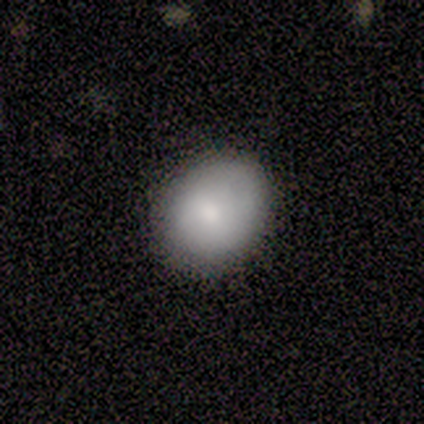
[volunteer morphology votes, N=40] smooth-or-featured: smooth: 78% | featured or disk: 15% | star or artifact: 8%
  how-rounded: round: 65% | in between: 35% | cigar-shaped: 0%
  merging: none: 68% | major disturbance: 3% | minor disturbance: 0% | merger: 0%